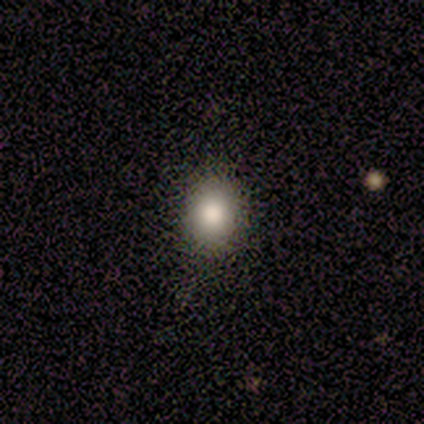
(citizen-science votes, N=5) This is clearly a smooth galaxy (100%). How rounded: clearly round (80%). Merging: likely none (60%).